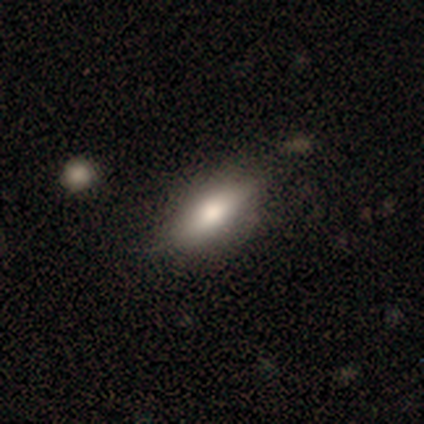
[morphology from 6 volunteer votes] smooth_or_featured: smooth (p=0.83) [alt: featured or disk p=0.17]
how_rounded: in between (p=1.00)
merging: none (p=0.83) [alt: merger p=0.17]